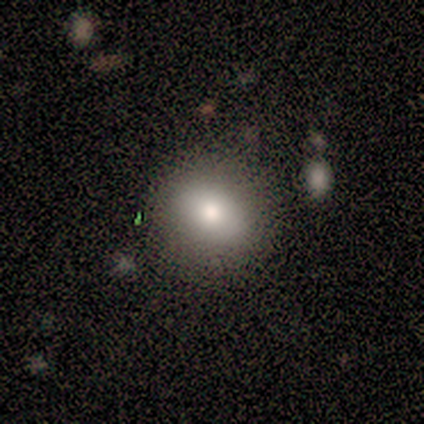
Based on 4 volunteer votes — This appears to be a smooth galaxy with no disk features (50%, tied with featured or disk) that is round (100%). Merging: none (100%).